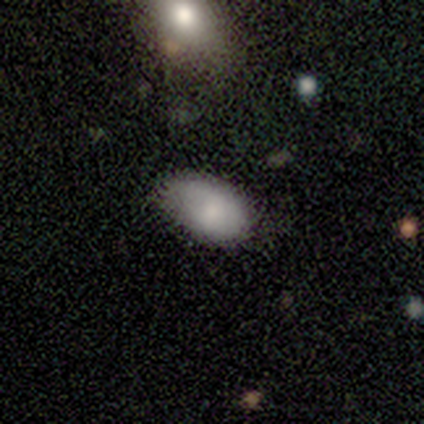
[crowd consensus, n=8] smooth-or-featured: smooth: 88% | star or artifact: 12% | featured or disk: 0%
  how-rounded: in between: 100% | round: 0% | cigar-shaped: 0%
  merging: none: 57% | minor disturbance: 43% | major disturbance: 0% | merger: 0%